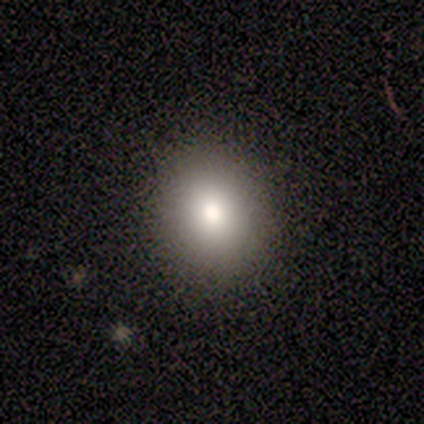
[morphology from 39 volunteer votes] This is likely a smooth galaxy (79%). How rounded: likely round (71%). Merging: clearly none (97%).